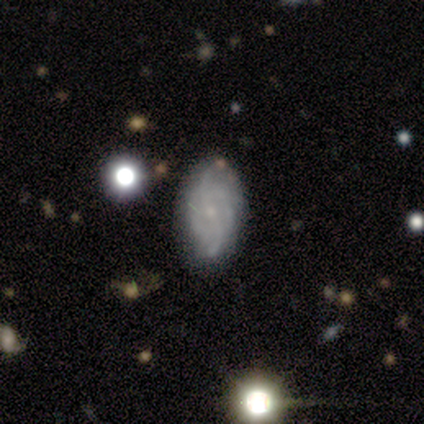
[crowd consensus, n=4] Overall: featured or disk (100%). Edge-on disk: no (100%). Bar: no (75%). Spiral arms: yes (75%). Spiral arm count: can't tell (67%; 2 33%). Spiral winding: tight (67%; medium 33%). Bulge size: small (50%; large 25%). Merging: none (75%).